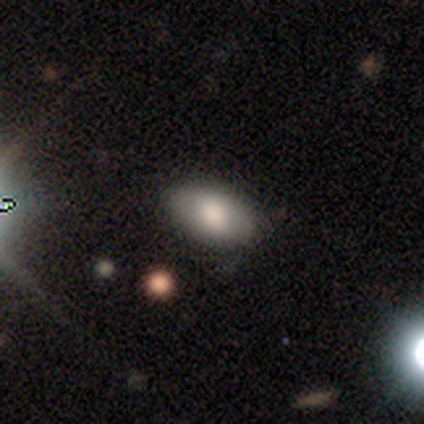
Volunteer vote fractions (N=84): A smooth galaxy with no disk features (82%) that is in between round and cigar-shaped (94%).

Vote fractions:
- Smooth or featured? smooth: 82% / star or artifact: 11% / featured or disk: 7%
- How rounded? in between: 94% / round: 6% / cigar-shaped: 0%
- Merging? none: 81% / minor disturbance: 15% / major disturbance: 4% / merger: 0%